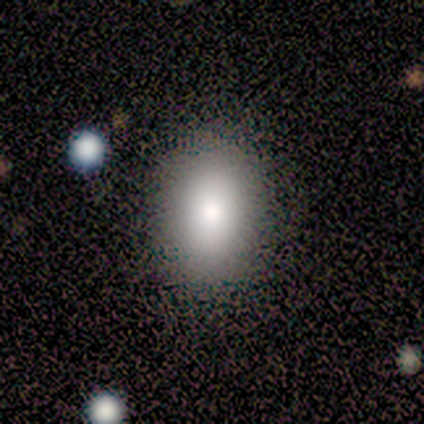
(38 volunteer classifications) smooth-or-featured: smooth: 79% | featured or disk: 13% | star or artifact: 8%
  how-rounded: in between: 67% | round: 27% | cigar-shaped: 7%
  merging: none: 86% | minor disturbance: 11% | major disturbance: 3% | merger: 0%